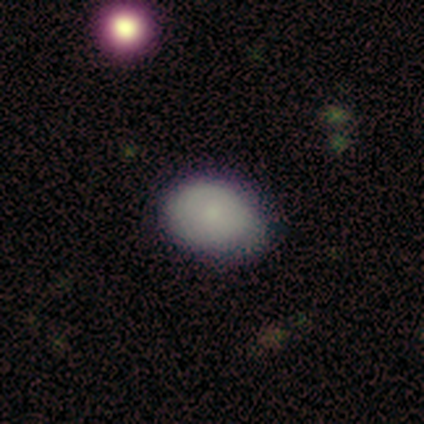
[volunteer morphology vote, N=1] A smooth galaxy with no disk features (100%) that is round (100%). Merging: none (100%).